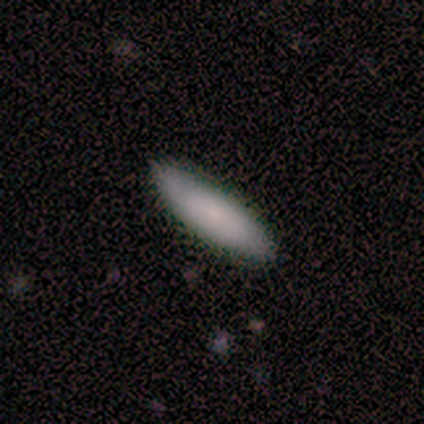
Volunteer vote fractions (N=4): A smooth galaxy with no disk features (100%) that is in between round and cigar-shaped (50%, tied with cigar-shaped). Merging: none (100%).